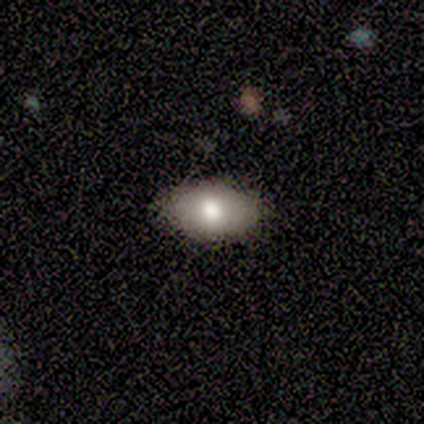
smooth_or_featured: smooth (p=0.75) [alt: featured or disk p=0.25]
how_rounded: in between (p=1.00)
merging: none (p=1.00)